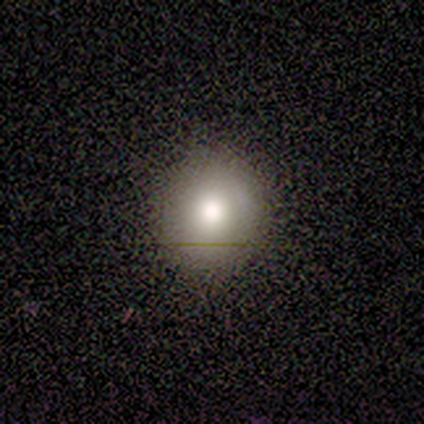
Volunteers were most divided on "how rounded" (2-way tie): round: 50%, in between: 50%, cigar-shaped: 0%. More confident: smooth or featured — smooth (80%); merging — minor disturbance (75%).